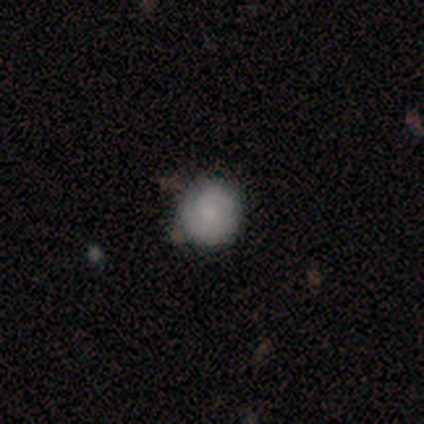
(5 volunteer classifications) This is marginally a smooth galaxy (40%, tied with star or artifact). How rounded: clearly round (100%). Merging: likely minor disturbance (67%).